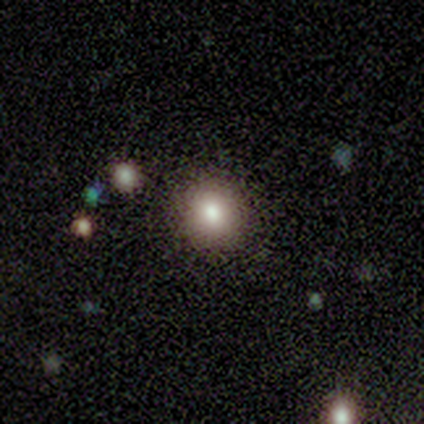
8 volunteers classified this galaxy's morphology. Q: Smooth or featured?
A: smooth (100%)
Q: How rounded?
A: round (100%)
Q: Merging?
A: none (88%); runner-up: minor disturbance (12%)